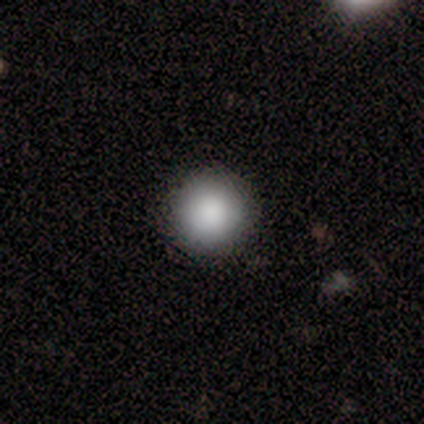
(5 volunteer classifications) smooth-or-featured: smooth: 100% | featured or disk: 0% | star or artifact: 0%
  how-rounded: round: 100% | in between: 0% | cigar-shaped: 0%
  merging: none: 80% | minor disturbance: 20% | major disturbance: 0% | merger: 0%